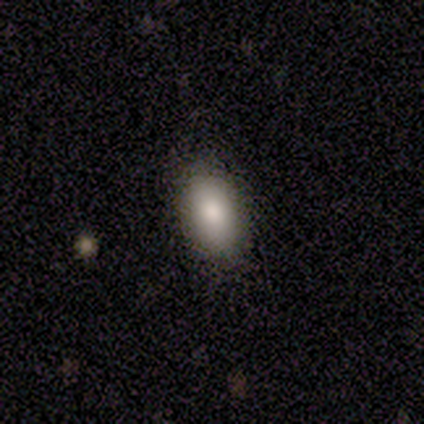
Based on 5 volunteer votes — smooth 80%, star or artifact 20%, featured or disk 0%. Down the decision tree: how rounded — in between (75%); merging — none (100%).